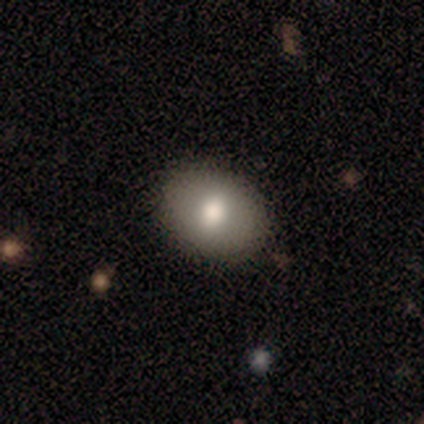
smooth-or-featured: smooth: 100% | featured or disk: 0% | star or artifact: 0%
  how-rounded: round: 80% | in between: 20% | cigar-shaped: 0%
  merging: none: 80% | minor disturbance: 20% | major disturbance: 0% | merger: 0%